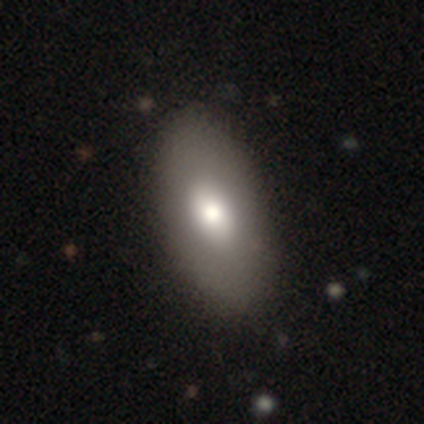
Volunteers were most divided on "smooth or featured": smooth: 72%, featured or disk: 23%, star or artifact: 5%. More confident: how rounded — in between (82%); merging — none (78%).